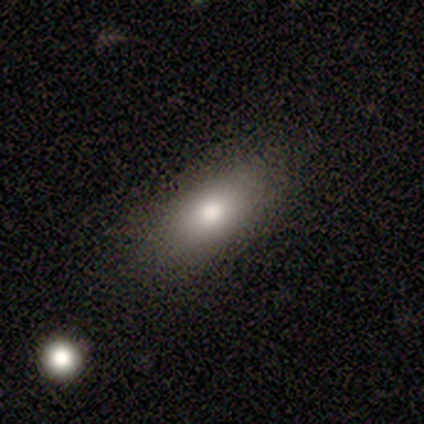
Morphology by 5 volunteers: smooth-or-featured: smooth: 100% | featured or disk: 0% | star or artifact: 0%
  how-rounded: in between: 80% | cigar-shaped: 20% | round: 0%
  merging: none: 100% | minor disturbance: 0% | major disturbance: 0% | merger: 0%